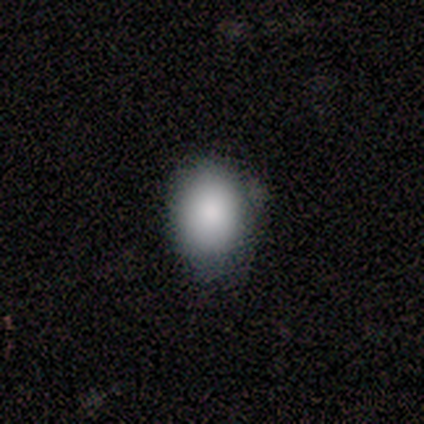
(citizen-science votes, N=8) A smooth galaxy with no disk features (88%) that is in between round and cigar-shaped (57%). Merging: none (71%).